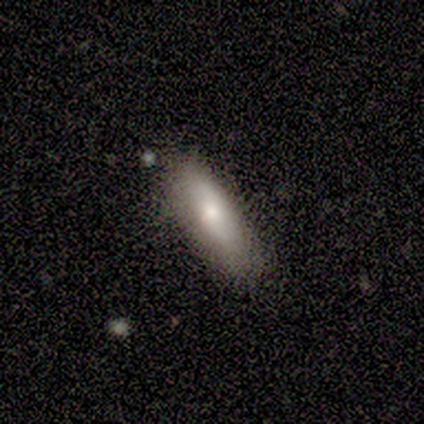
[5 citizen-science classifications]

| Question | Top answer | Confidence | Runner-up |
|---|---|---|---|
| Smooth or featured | smooth | 60% | featured or disk (20%) |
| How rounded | cigar-shaped | 67% | in between (33%) |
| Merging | none | 100% | — |